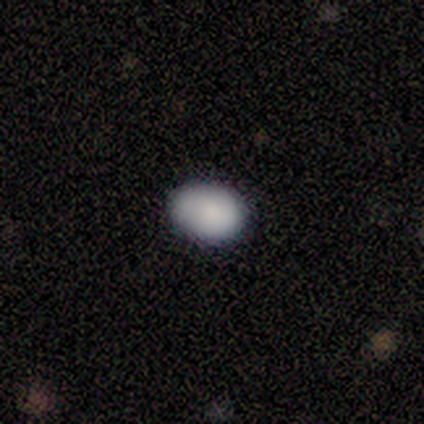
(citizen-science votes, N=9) Volunteers were most divided on "how rounded": in between: 75%, round: 25%, cigar-shaped: 0%. More confident: smooth or featured — smooth (89%); merging — none (89%).